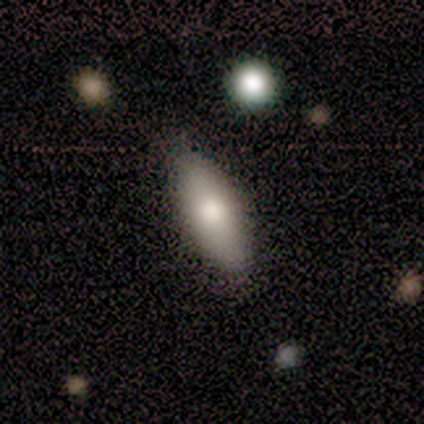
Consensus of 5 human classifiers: smooth-or-featured: smooth: 100% | featured or disk: 0% | star or artifact: 0%
  how-rounded: in between: 80% | cigar-shaped: 20% | round: 0%
  merging: none: 100% | minor disturbance: 0% | major disturbance: 0% | merger: 0%